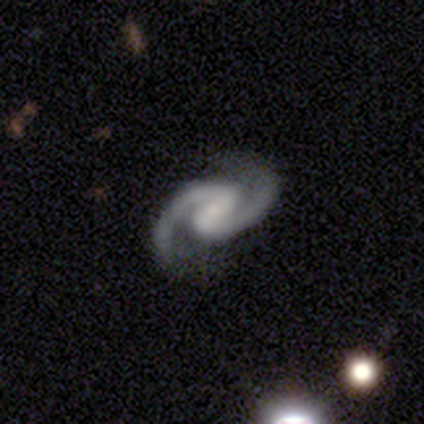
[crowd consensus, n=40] smooth-or-featured: featured or disk: 92% | star or artifact: 5% | smooth: 2%
  disk-edge-on: no: 97% | yes: 3%
    bar: weak: 58% | strong: 31% | no: 11%
    has-spiral-arms: yes: 97% | no: 3%
      spiral-winding: medium: 66% | tight: 17% | loose: 17%
      spiral-arm-count: 2: 100% | 1: 0% | 3: 0% | 4: 0% | more than 4: 0% | can't tell: 0%
    bulge-size: small: 78% | moderate: 11% | none: 8% | large: 3% | dominant: 0%
  merging: none: 79% | minor disturbance: 11% | major disturbance: 5% | merger: 5%